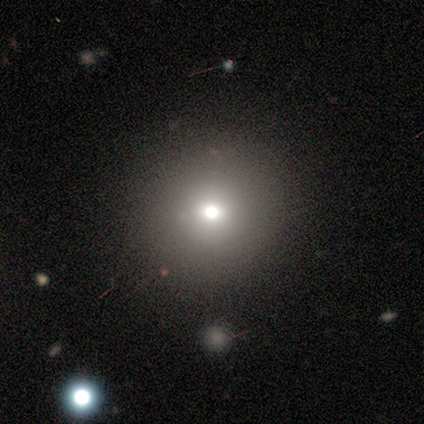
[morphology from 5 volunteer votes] This is likely a smooth galaxy (60%). How rounded: clearly round (100%). Merging: clearly none (100%).